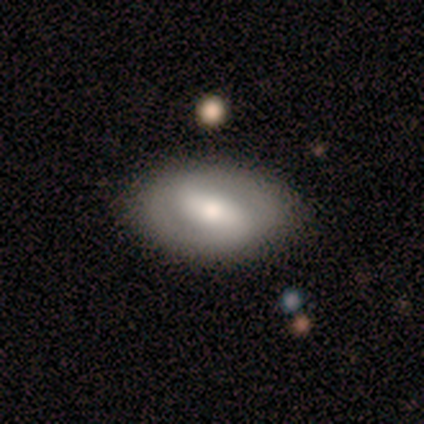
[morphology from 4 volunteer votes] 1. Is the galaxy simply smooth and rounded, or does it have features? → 50% smooth (tied), 50% featured or disk (tied), 0% star or artifact.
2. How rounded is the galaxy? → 100% in between, 0% round, 0% cigar-shaped.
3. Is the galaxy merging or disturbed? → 75% none, 25% minor disturbance, 0% major disturbance, 0% merger.